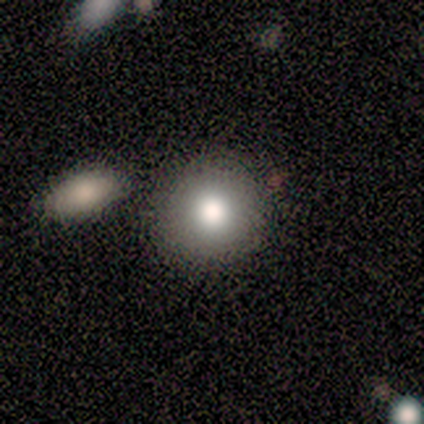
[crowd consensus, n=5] This is clearly a smooth galaxy (100%). How rounded: clearly round (100%). Merging: clearly none (100%).